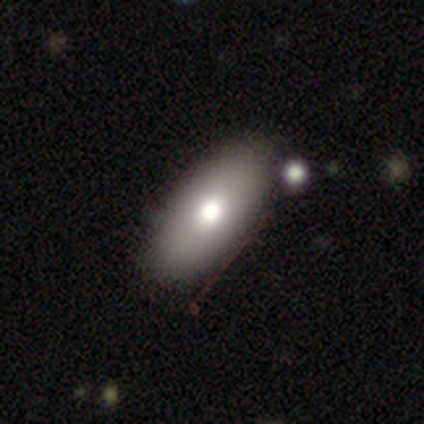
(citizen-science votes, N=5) A smooth galaxy with no disk features (60%) that is in between round and cigar-shaped (67%).

Vote fractions:
- Smooth or featured? smooth: 60% / featured or disk: 40% / star or artifact: 0%
- How rounded? in between: 67% / cigar-shaped: 33% / round: 0%
- Merging? none: 80% / minor disturbance: 20% / major disturbance: 0% / merger: 0%